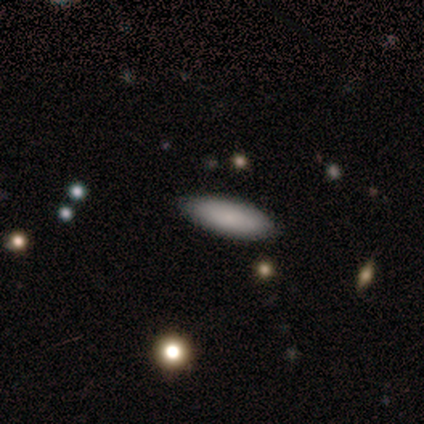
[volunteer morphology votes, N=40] smooth_or_featured: smooth (p=0.97) [alt: featured or disk p=0.03]
how_rounded: in between (p=0.72) [alt: cigar-shaped p=0.28]
merging: none (p=0.90) [alt: minor disturbance p=0.07]